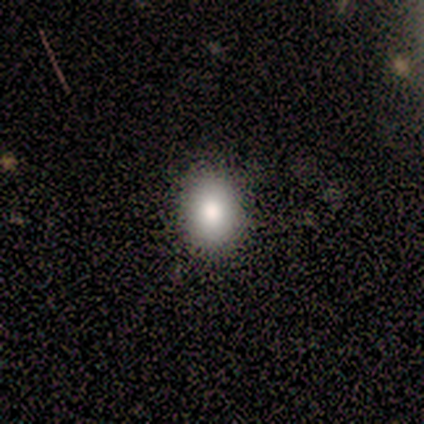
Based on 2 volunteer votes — A smooth galaxy with no disk features (50%, tied with star or artifact) that is in between round and cigar-shaped (100%).

Vote fractions:
- Smooth or featured? smooth: 50% (tied) / star or artifact: 50% (tied) / featured or disk: 0%
- How rounded? in between: 100% / round: 0% / cigar-shaped: 0%
- Merging? none: 100% / minor disturbance: 0% / major disturbance: 0% / merger: 0%